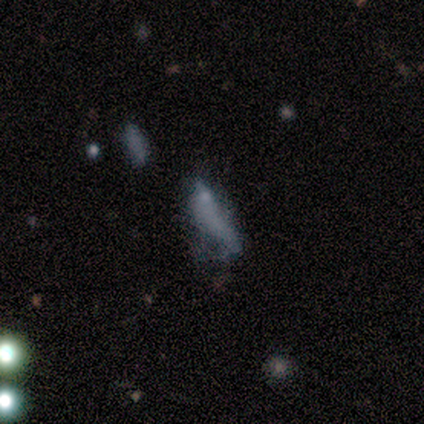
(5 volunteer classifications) Overall: featured or disk (40%, tied with star or artifact). Edge-on disk: no (100%). Bar: strong (50%, tied with no). Spiral arms: no (100%). Bulge size: dominant (50%, tied with small). Merging: major disturbance (67%; none 33%).